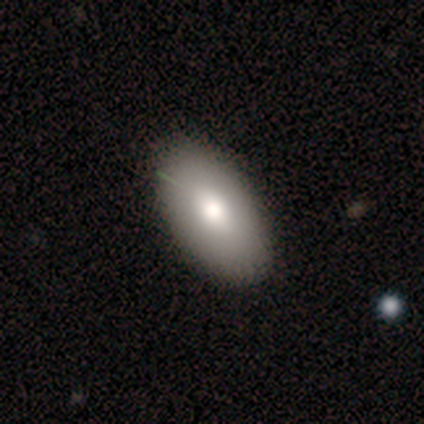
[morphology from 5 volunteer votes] smooth 60%, featured or disk 40%, star or artifact 0%. Down the decision tree: how rounded — in between (100%); merging — none (80%).